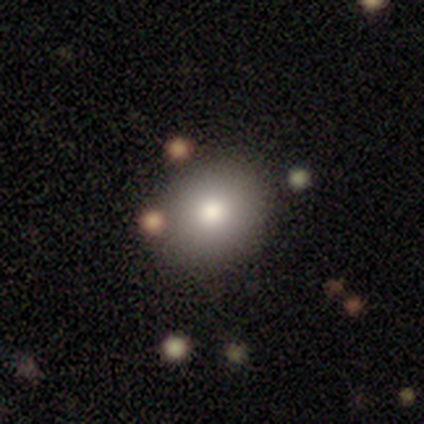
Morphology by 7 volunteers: type=smooth (86%); roundness=round (83%); merging=none (100%).